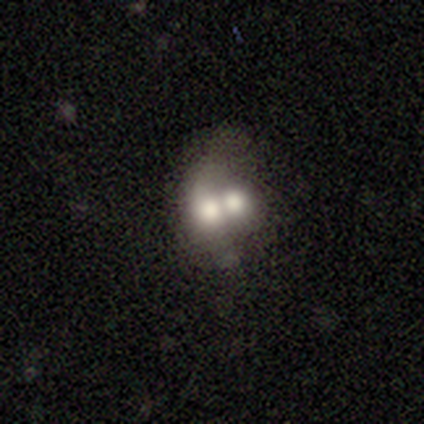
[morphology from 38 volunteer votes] Smooth or featured? 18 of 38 (47%) said smooth. How rounded? 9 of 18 (50%, tied with in between) said round. Merging? 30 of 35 (86%) said merger.